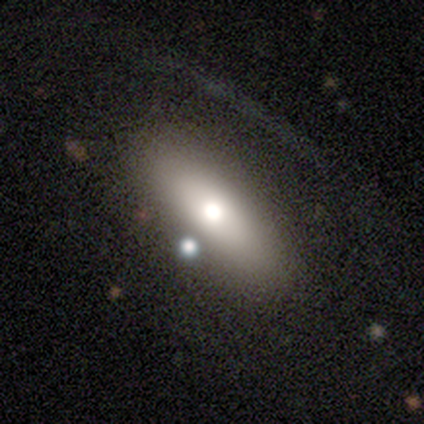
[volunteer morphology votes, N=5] smooth_or_featured: featured or disk (p=0.60) [alt: star or artifact p=0.40]
disk_edge_on: yes (p=0.67) [alt: no p=0.33]
edge_on_bulge: rounded (p=1.00)
merging: none (p=0.67) [alt: major disturbance p=0.33]